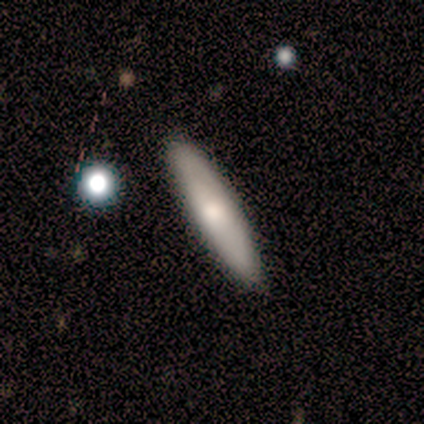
Smooth or featured?
  - smooth: 60% *
  - featured or disk: 40%
  - star or artifact: 0%
How rounded?
  - cigar-shaped: 100% *
  - round: 0%
  - in between: 0%
Merging?
  - none: 100% *
  - minor disturbance: 0%
  - major disturbance: 0%
  - merger: 0%